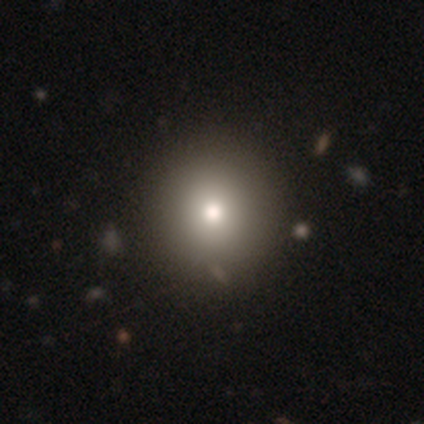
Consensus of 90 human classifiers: Smooth or featured?
  - smooth: 63% *
  - star or artifact: 19%
  - featured or disk: 18%
How rounded?
  - round: 91% *
  - in between: 9%
  - cigar-shaped: 0%
Merging?
  - none: 88% *
  - minor disturbance: 8%
  - major disturbance: 3%
  - merger: 1%